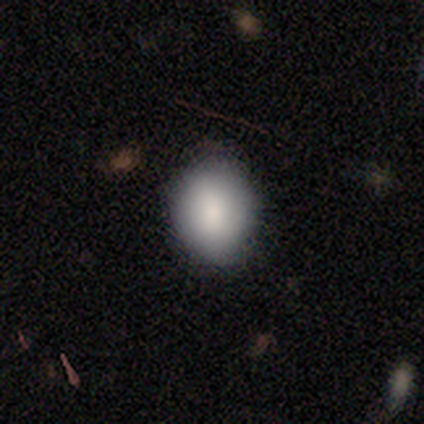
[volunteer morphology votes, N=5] smooth 100%, featured or disk 0%, star or artifact 0%. Down the decision tree: how rounded — in between (60%); merging — none (100%).